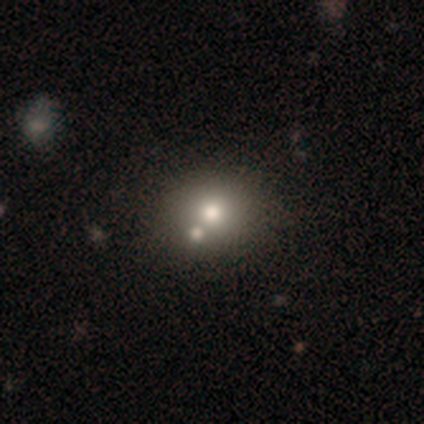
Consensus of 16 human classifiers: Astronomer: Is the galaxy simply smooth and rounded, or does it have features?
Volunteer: smooth — 56%.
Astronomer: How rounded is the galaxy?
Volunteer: round — 89%.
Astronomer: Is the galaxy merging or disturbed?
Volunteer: none — 50%, tied with merger at 50%.